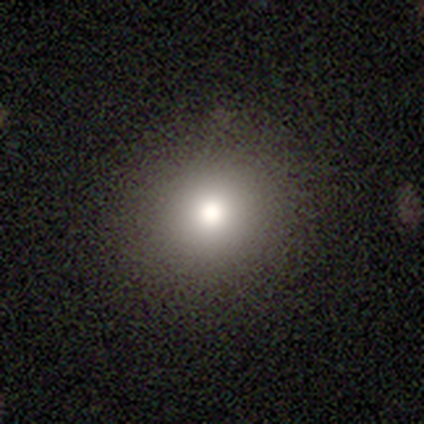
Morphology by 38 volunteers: type=smooth (79%); roundness=round (90%); merging=none (94%).